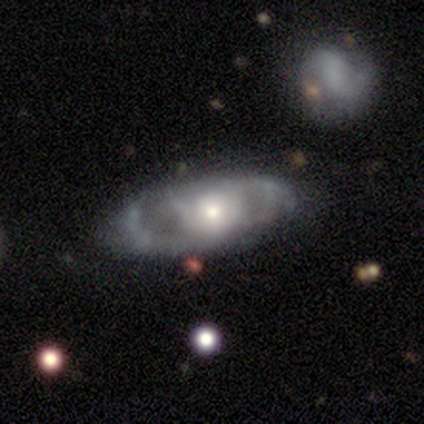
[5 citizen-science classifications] Volunteers were most divided on "spiral arm count" (3-way tie): 2: 33%, 3: 33%, can't tell: 33%, 1: 0%, 4: 0%, more than 4: 0%. More confident: smooth or featured — featured or disk (100%); bar — no (100%); edge-on disk — no (80%); spiral arms — yes (75%); bulge size — small (75%); spiral winding — tight (67%); merging — none (60%).